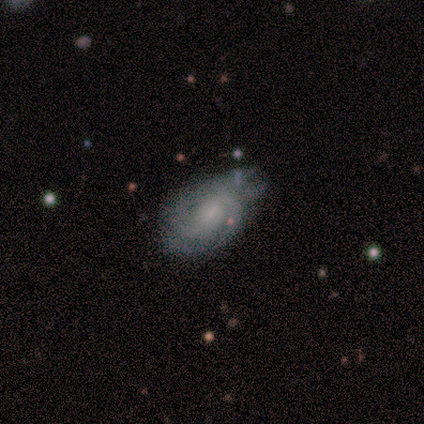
Overall: featured or disk (100%). Edge-on disk: no (100%). Bar: no (50%; strong 25%). Spiral arms: yes (100%). Spiral arm count: 2 (50%; 3 25%). Spiral winding: medium (75%). Bulge size: small (50%; moderate 25%). Merging: major disturbance (50%; none 25%).